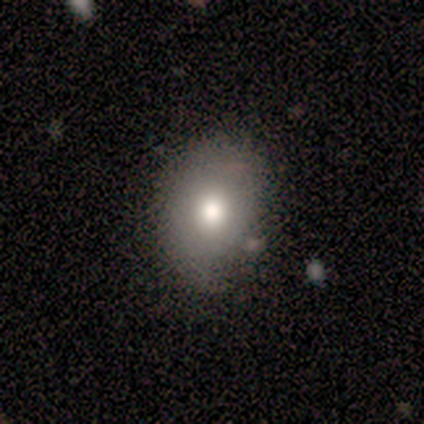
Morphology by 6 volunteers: Q: Smooth or featured?
A: star or artifact (67%); runner-up: smooth (33%)